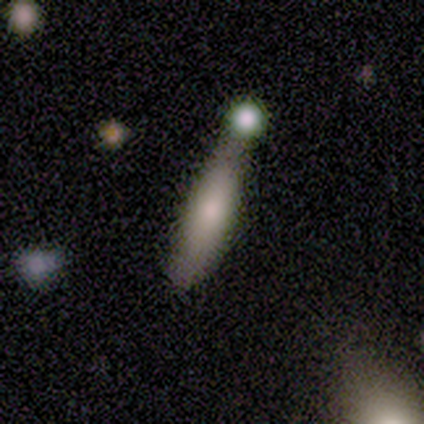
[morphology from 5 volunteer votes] This is clearly a smooth galaxy (80%). How rounded: likely cigar-shaped (75%). Merging: marginally minor disturbance (40%).